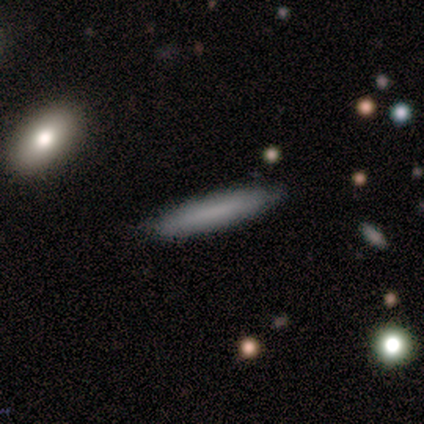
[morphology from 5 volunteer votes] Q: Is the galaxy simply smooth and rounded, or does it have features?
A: smooth — 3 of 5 (60%).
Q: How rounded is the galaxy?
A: cigar-shaped — 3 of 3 (100%).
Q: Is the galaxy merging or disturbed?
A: none — 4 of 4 (100%).